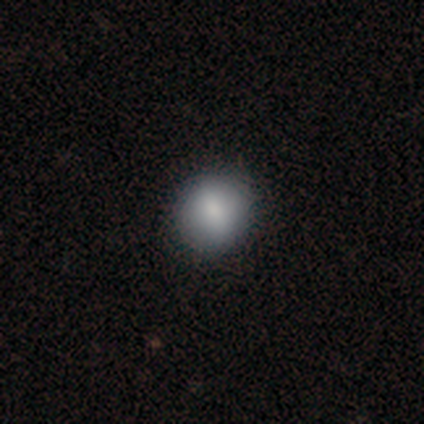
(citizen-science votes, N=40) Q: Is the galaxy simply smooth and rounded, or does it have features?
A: smooth — 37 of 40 (92%).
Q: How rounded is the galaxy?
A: round — 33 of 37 (89%).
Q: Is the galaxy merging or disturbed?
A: none — 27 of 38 (71%).